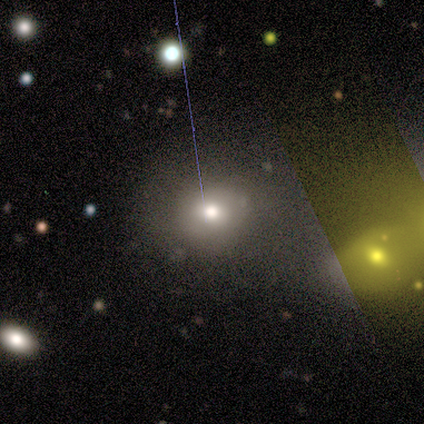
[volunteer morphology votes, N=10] Overall: smooth (80%). How rounded: round (88%). Merging: none (70%).